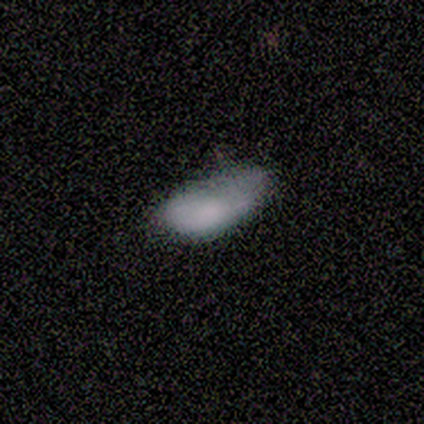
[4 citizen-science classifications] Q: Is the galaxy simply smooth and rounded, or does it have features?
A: smooth — 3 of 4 (75%).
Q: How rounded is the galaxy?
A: in between — 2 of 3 (67%).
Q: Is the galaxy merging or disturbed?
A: none — 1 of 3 (33%, tied with major disturbance and merger).